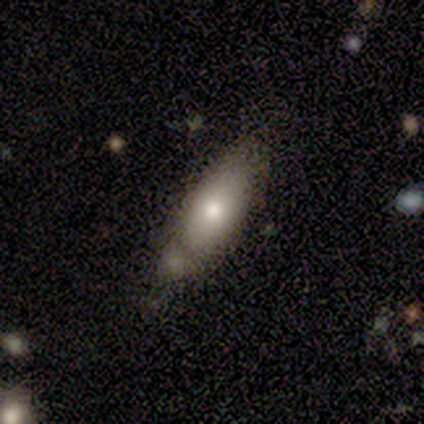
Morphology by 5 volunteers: Overall: smooth (80%). How rounded: in between (75%). Merging: none (60%; minor disturbance 40%).